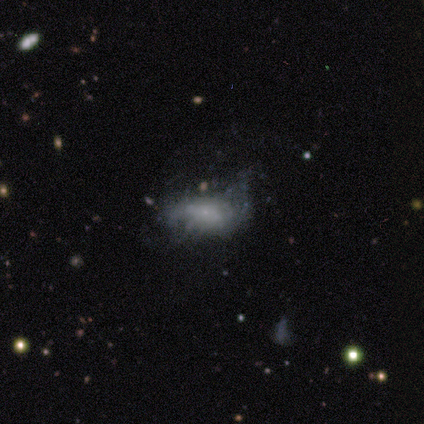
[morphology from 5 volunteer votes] type=smooth (40%, tied with featured or disk); roundness=in between (100%); merging=none (50%).